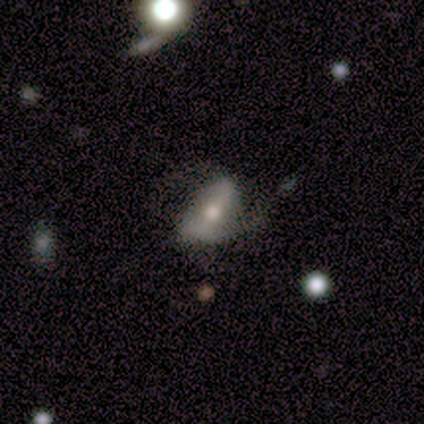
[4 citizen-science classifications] Overall: smooth (50%, tied with featured or disk). How rounded: round (50%, tied with in between). Merging: none (50%, tied with major disturbance).